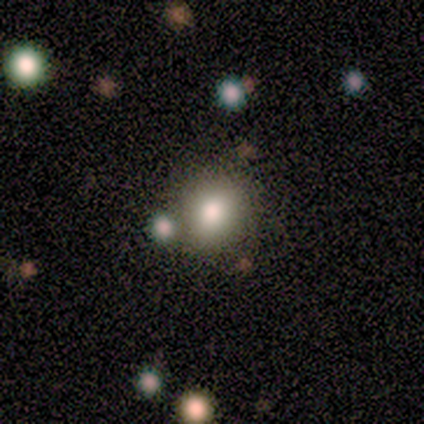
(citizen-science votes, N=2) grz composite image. It shows a smooth galaxy with no disk features (100%) that is in between round and cigar-shaped (100%). Merging: merger (100%).